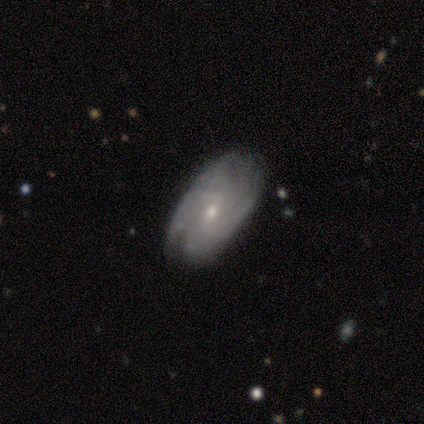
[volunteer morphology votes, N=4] Q: Smooth or featured?
A: featured or disk (100%)
Q: Edge-on disk?
A: no (100%)
Q: Bar?
A: weak (50%); tied with: no (50%)
Q: Spiral arms?
A: yes (75%); runner-up: no (25%)
Q: Spiral winding?
A: medium (67%); runner-up: tight (33%)
Q: Spiral arm count?
A: 2 (67%); runner-up: can't tell (33%)
Q: Bulge size?
A: small (75%); runner-up: moderate (25%)
Q: Merging?
A: none (75%); runner-up: major disturbance (25%)